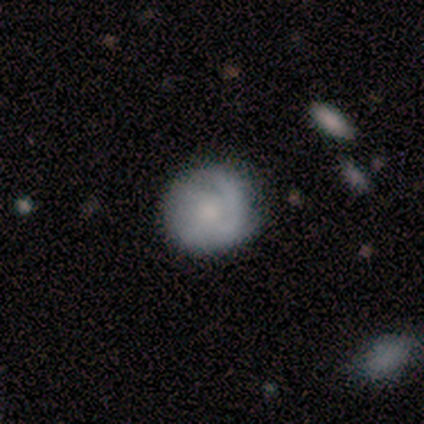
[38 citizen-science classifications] This appears to be a featured or disk galaxy (76%) with no bar (93%), medium (54%) spiral arms (97%) and a small central bulge (45%). Merging: none (61%).